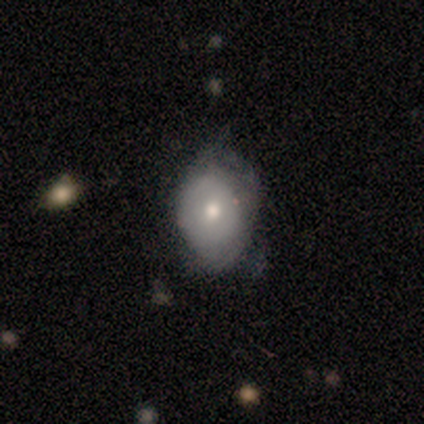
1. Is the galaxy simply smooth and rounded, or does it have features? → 60% smooth, 40% featured or disk, 0% star or artifact.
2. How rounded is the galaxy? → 100% in between, 0% round, 0% cigar-shaped.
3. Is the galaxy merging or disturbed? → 60% minor disturbance, 40% none, 0% major disturbance, 0% merger.